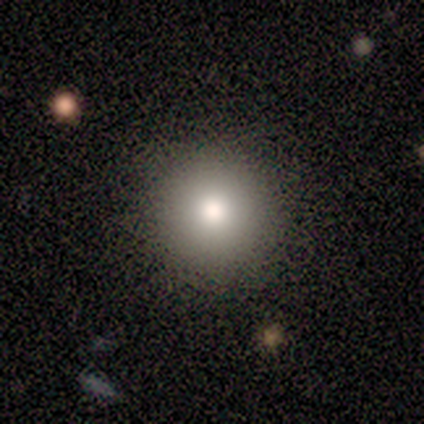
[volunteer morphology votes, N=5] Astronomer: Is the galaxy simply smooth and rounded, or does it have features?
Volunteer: star or artifact — 60% (runner-up: smooth, 40%).